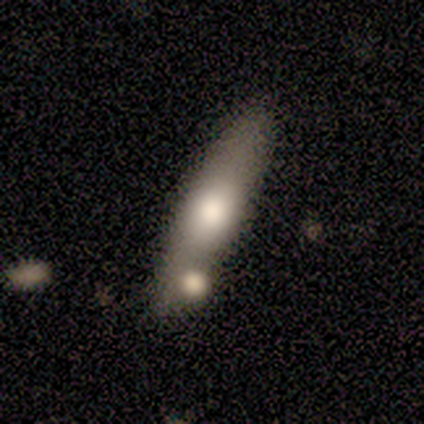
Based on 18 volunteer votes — smooth_or_featured: smooth (p=0.50) [alt: featured or disk p=0.44]
how_rounded: cigar-shaped (p=0.67) [alt: in between p=0.33]
merging: none (p=0.76) [alt: minor disturbance p=0.12]